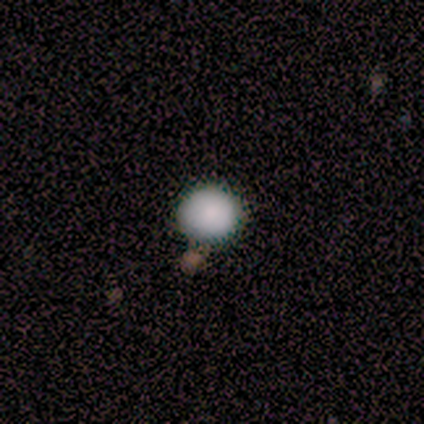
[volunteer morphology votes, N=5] smooth_or_featured: smooth (p=1.00)
how_rounded: round (p=1.00)
merging: none (p=0.80) [alt: minor disturbance p=0.20]